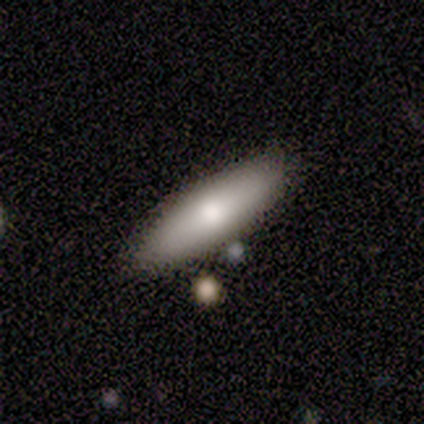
Smooth or featured? smooth (83%)
How rounded? cigar-shaped (100%)
Merging? none (50%)